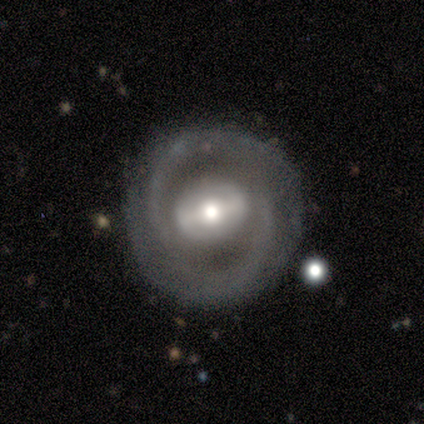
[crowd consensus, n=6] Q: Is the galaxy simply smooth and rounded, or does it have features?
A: featured or disk — 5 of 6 (83%).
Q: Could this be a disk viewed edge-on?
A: no — 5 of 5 (100%).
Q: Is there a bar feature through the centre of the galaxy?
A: strong — 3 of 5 (60%).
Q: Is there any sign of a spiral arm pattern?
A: yes — 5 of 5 (100%).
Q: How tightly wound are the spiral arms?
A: tight — 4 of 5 (80%).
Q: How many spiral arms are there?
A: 2 — 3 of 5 (60%).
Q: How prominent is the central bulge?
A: moderate — 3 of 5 (60%).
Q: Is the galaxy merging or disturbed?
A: none — 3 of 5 (60%).